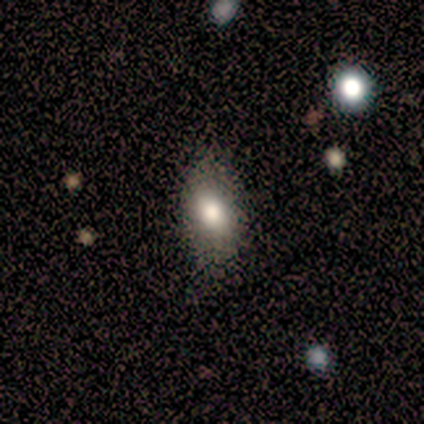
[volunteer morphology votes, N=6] Smooth or featured? 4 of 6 (67%) said smooth. How rounded? 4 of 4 (100%) said in between. Merging? 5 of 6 (83%) said none.